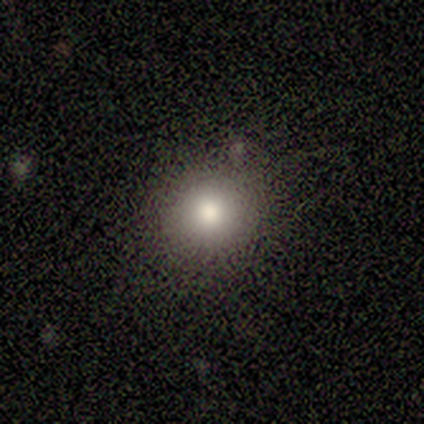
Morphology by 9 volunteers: Smooth or featured?
  - smooth: 78% *
  - star or artifact: 22%
  - featured or disk: 0%
How rounded?
  - round: 86% *
  - in between: 14%
  - cigar-shaped: 0%
Merging?
  - none: 86% *
  - minor disturbance: 14%
  - major disturbance: 0%
  - merger: 0%